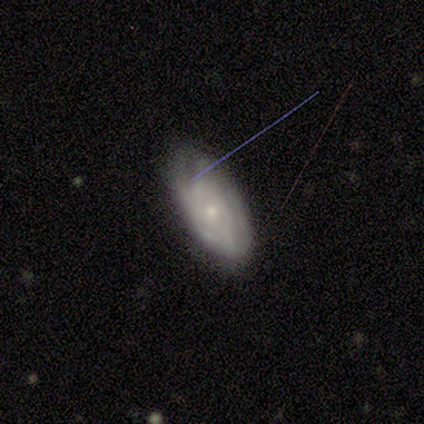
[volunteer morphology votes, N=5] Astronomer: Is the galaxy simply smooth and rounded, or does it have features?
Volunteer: featured or disk — 80%.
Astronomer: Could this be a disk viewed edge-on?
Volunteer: no — 75%.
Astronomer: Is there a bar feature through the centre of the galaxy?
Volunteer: no — 100%.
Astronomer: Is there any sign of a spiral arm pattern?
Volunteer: yes — 67%.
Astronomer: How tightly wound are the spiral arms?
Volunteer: tight — 100%.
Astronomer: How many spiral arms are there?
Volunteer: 1 — 50%, tied with more than 4 at 50%.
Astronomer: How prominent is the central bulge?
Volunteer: moderate — 100%.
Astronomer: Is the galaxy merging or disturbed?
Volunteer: none — 60%.